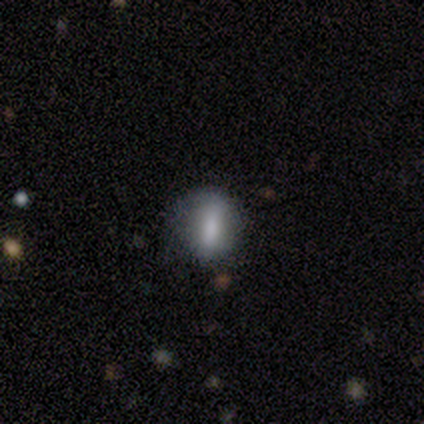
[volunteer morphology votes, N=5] Smooth or featured?
  - featured or disk: 80% *
  - star or artifact: 20%
  - smooth: 0%
Edge-on disk?
  - no: 75% *
  - yes: 25%
Bar?
  - strong: 33% * (tied)
  - weak: 33% * (tied)
  - no: 33% * (tied)
Spiral arms?
  - no: 100% *
  - yes: 0%
Bulge size?
  - none: 67% *
  - small: 33%
  - dominant: 0%
  - large: 0%
  - moderate: 0%
Merging?
  - none: 75% *
  - minor disturbance: 25%
  - major disturbance: 0%
  - merger: 0%